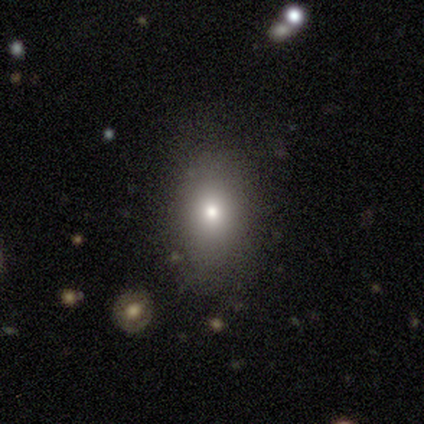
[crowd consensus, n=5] Smooth or featured? 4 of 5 (80%) said smooth. How rounded? 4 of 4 (100%) said in between. Merging? 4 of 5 (80%) said none.